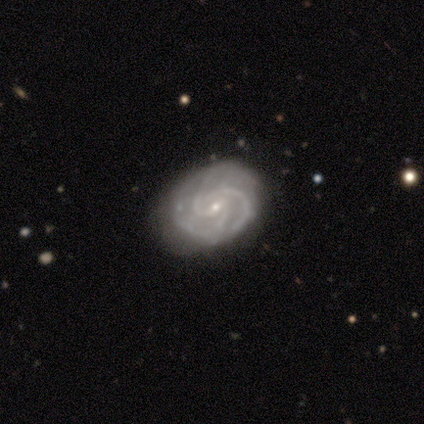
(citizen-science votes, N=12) A featured or disk galaxy (100%) with no bar (55%), 3 (55%) tight (45%, tied with medium) spiral arms (100%) and a small central bulge (73%). Merging: none (83%).